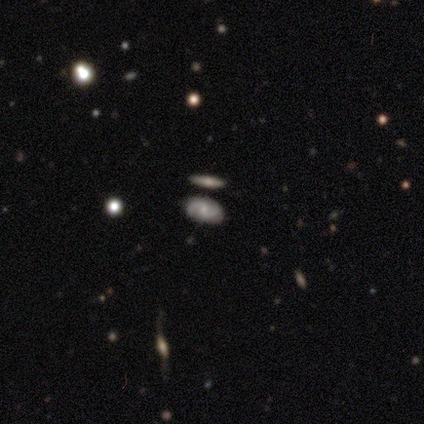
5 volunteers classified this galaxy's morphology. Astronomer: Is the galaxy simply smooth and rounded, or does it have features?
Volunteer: featured or disk — 100%.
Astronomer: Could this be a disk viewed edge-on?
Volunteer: no — 100%.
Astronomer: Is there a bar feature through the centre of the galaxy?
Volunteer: no — 60% (runner-up: weak, 40%).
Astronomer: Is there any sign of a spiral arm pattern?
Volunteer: yes — 80%.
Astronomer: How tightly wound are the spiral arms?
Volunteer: loose — 50%.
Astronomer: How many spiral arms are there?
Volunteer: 2 — 75%.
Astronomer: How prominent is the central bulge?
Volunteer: small — 60% (runner-up: moderate, 40%).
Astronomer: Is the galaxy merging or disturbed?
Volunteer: none — 100%.